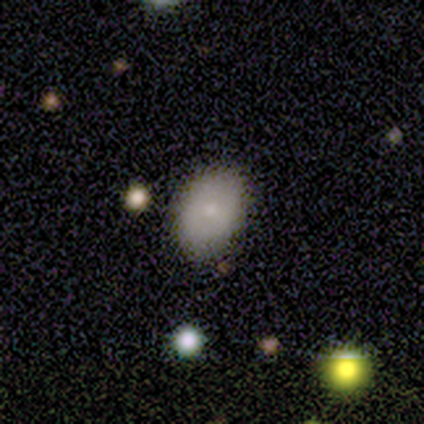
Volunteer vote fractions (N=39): Smooth or featured?
  - smooth: 69% *
  - featured or disk: 26%
  - star or artifact: 5%
How rounded?
  - in between: 63% *
  - round: 37%
  - cigar-shaped: 0%
Merging?
  - none: 89% *
  - minor disturbance: 8%
  - major disturbance: 3%
  - merger: 0%